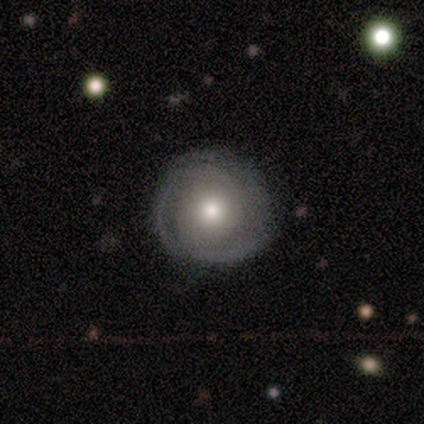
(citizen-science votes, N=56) Volunteers were most divided on "spiral arm count": 2: 54%, 3: 16%, can't tell: 16%, 1: 11%, 4: 3%, more than 4: 0%. More confident: edge-on disk — no (96%); bar — no (95%); spiral arms — yes (86%); merging — none (85%); smooth or featured — featured or disk (80%); spiral winding — tight (73%); bulge size — moderate (67%).